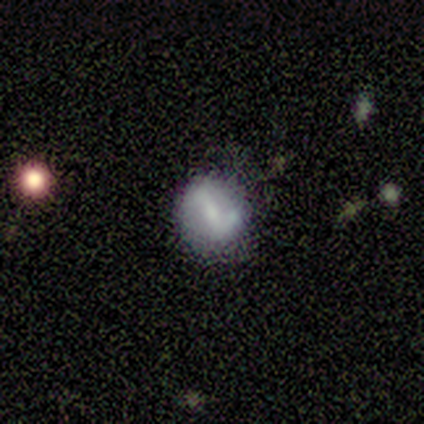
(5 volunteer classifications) This is likely a smooth galaxy (60%). How rounded: clearly round (100%). Merging: possibly none (50%).